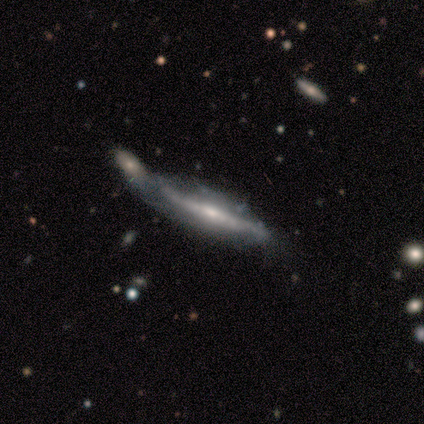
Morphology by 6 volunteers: Overall: featured or disk (100%). Edge-on disk: yes (50%, tied with no). Edge-on bulge: rounded (100%). Merging: minor disturbance (50%; none 33%).